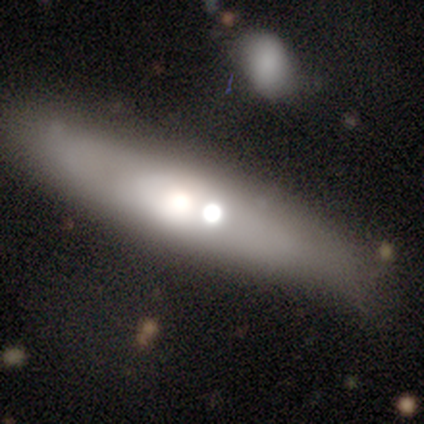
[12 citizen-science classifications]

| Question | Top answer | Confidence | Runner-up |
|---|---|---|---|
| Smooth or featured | smooth | 58% | featured or disk (42%) |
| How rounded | cigar-shaped | 86% | in between (14%) |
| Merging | none | 50% | merger (33%) |